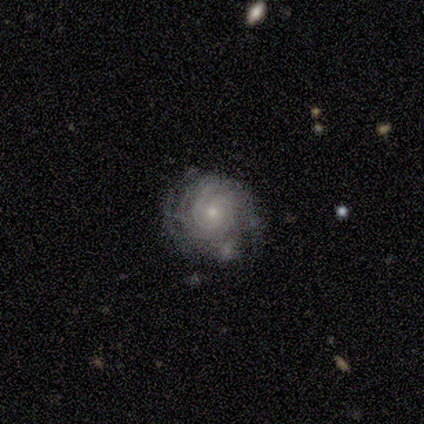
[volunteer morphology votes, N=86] Smooth or featured? featured or disk (88%)
Edge-on disk? no (97%)
Bar? no (92%)
Spiral arms? yes (99%)
Spiral winding? tight (82%)
Spiral arm count? can't tell (42%)
Bulge size? small (61%)
Merging? none (62%)